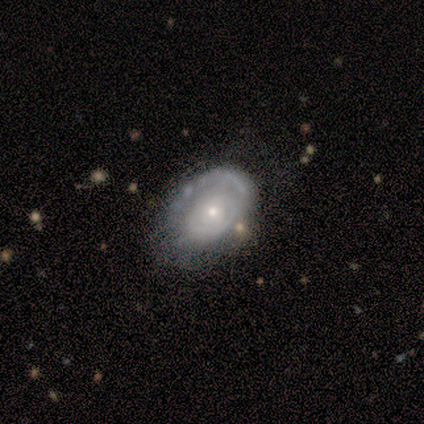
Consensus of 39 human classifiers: smooth_or_featured: featured or disk (p=0.69) [alt: smooth p=0.26]
disk_edge_on: no (p=1.00)
bar: no (p=0.74) [alt: strong p=0.15]
has_spiral_arms: yes (p=0.59) [alt: no p=0.41]
spiral_winding: tight (p=0.81) [alt: medium p=0.12]
spiral_arm_count: 1 (p=0.50) [alt: can't tell p=0.44]
bulge_size: small (p=0.56) [alt: moderate p=0.30]
merging: minor disturbance (p=0.46) [alt: none p=0.43]